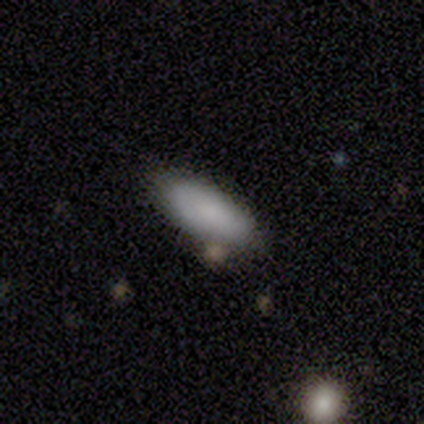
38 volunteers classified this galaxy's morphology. A smooth galaxy with no disk features (84%) that is in between round and cigar-shaped (81%). Merging: none (76%).